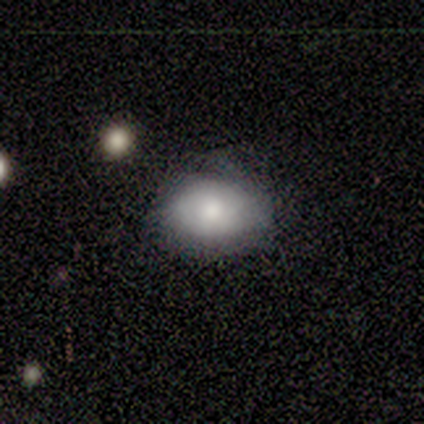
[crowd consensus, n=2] Volunteers were most divided on "smooth or featured" (2-way tie): smooth: 50%, featured or disk: 50%, star or artifact: 0%. More confident: how rounded — in between (100%); merging — none (100%).